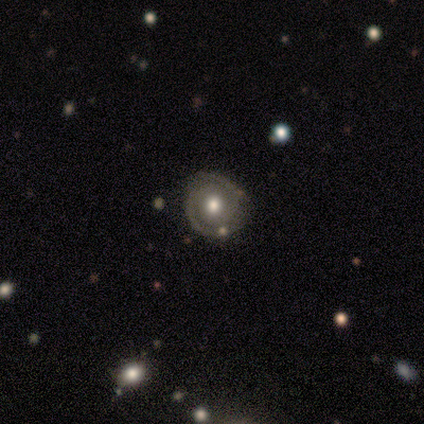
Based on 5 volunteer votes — Smooth or featured? 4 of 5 (80%) said featured or disk. Edge-on disk? 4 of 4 (100%) said no. Bar? 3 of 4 (75%) said no. Spiral arms? 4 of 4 (100%) said yes. Spiral winding? 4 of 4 (100%) said tight. Spiral arm count? 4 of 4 (100%) said 2. Bulge size? 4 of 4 (100%) said moderate. Merging? 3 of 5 (60%) said none.